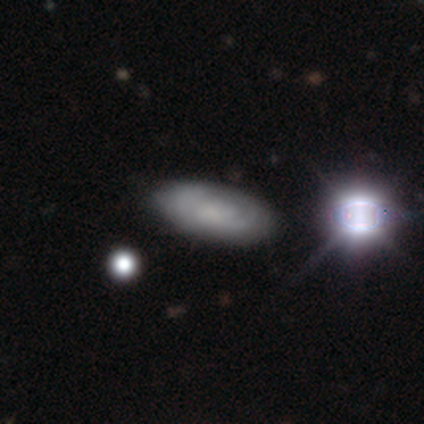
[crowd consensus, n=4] This is possibly a smooth galaxy (50%, tied with featured or disk). How rounded: clearly in between (100%). Merging: likely none (75%).